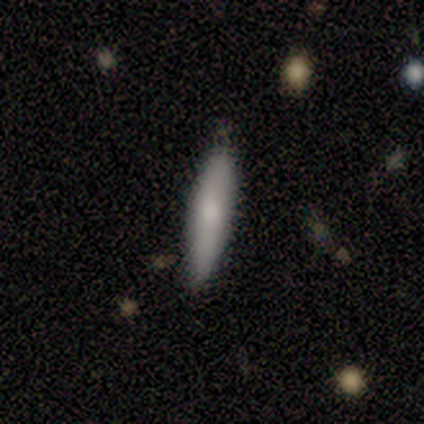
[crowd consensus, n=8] Smooth or featured?
  - smooth: 75% *
  - featured or disk: 25%
  - star or artifact: 0%
How rounded?
  - cigar-shaped: 67% *
  - in between: 33%
  - round: 0%
Merging?
  - none: 100% *
  - minor disturbance: 0%
  - major disturbance: 0%
  - merger: 0%